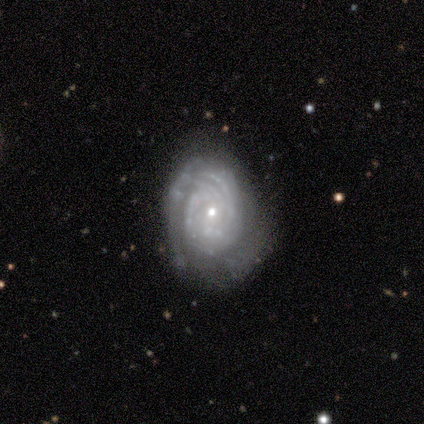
This appears to be a featured or disk galaxy (100%) with no bar (67%), 2 (67%) tight (100%) spiral arms (100%) and a moderate central bulge (67%). Merging: none (100%).